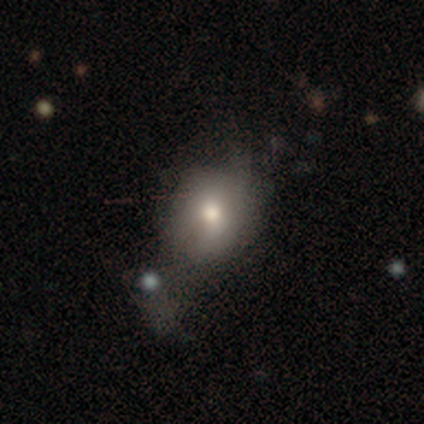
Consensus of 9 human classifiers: Overall: smooth (78%). How rounded: round (57%; in between 43%). Merging: minor disturbance (44%; major disturbance 33%).